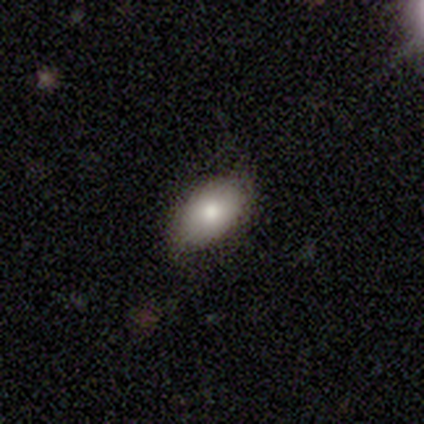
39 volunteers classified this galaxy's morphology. Smooth or featured?
  - smooth: 82% *
  - featured or disk: 13%
  - star or artifact: 5%
How rounded?
  - in between: 88% *
  - round: 9%
  - cigar-shaped: 3%
Merging?
  - none: 73% *
  - minor disturbance: 16%
  - major disturbance: 11%
  - merger: 0%